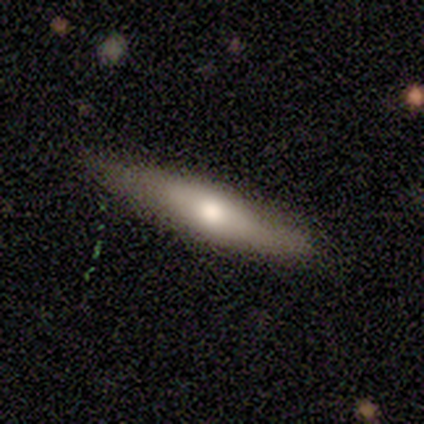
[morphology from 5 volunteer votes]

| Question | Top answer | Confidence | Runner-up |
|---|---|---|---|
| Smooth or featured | featured or disk | 80% | smooth (20%) |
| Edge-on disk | yes | 100% | — |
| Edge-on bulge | rounded | 100% | — |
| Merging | none | 60% | minor disturbance (20%) |